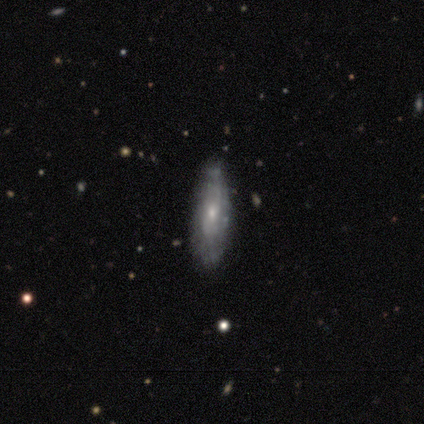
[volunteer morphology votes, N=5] Smooth or featured? featured or disk (80%)
Edge-on disk? yes (50%, tied with no)
Edge-on bulge? rounded (100%)
Merging? none (80%)